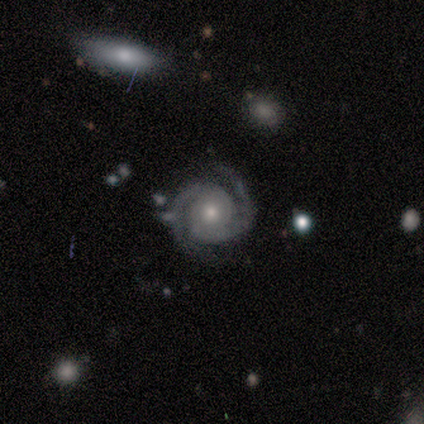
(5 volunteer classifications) smooth-or-featured: featured or disk: 100% | smooth: 0% | star or artifact: 0%
  disk-edge-on: no: 100% | yes: 0%
    bar: no: 100% | strong: 0% | weak: 0%
    has-spiral-arms: yes: 100% | no: 0%
      spiral-winding: tight: 80% | medium: 20% | loose: 0%
      spiral-arm-count: 2: 80% | can't tell: 20% | 1: 0% | 3: 0% | 4: 0% | more than 4: 0%
    bulge-size: small: 60% | moderate: 40% | dominant: 0% | large: 0% | none: 0%
  merging: none: 60% | minor disturbance: 20% | major disturbance: 20% | merger: 0%